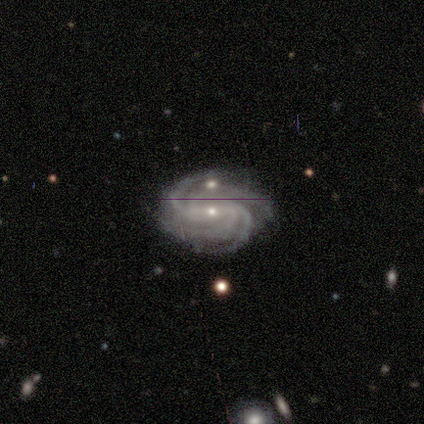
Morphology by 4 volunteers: A featured or disk galaxy (100%) with no bar (50%), 3 (50%) tight (50%, tied with medium) spiral arms (100%) and a small central bulge (100%).

Vote fractions:
- Smooth or featured? featured or disk: 100% / smooth: 0% / star or artifact: 0%
- Edge-on disk? no: 100% / yes: 0%
- Bar? no: 50% / strong: 25% / weak: 25%
- Spiral arms? yes: 100% / no: 0%
- Spiral winding? tight: 50% (tied) / medium: 50% (tied) / loose: 0%
- Spiral arm count? 3: 50% / 4: 25% / more than 4: 25% / 1: 0% / 2: 0% / can't tell: 0%
- Bulge size? small: 100% / dominant: 0% / large: 0% / moderate: 0% / none: 0%
- Merging? none: 100% / minor disturbance: 0% / major disturbance: 0% / merger: 0%